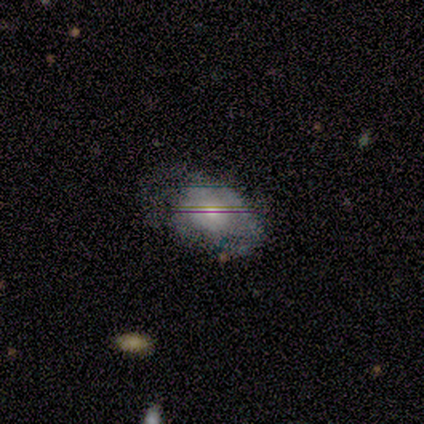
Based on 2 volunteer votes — Smooth or featured? featured or disk (50%, tied with star or artifact)
Edge-on disk? no (100%)
Bar? no (100%)
Spiral arms? no (100%)
Bulge size? moderate (100%)
Merging? none (100%)